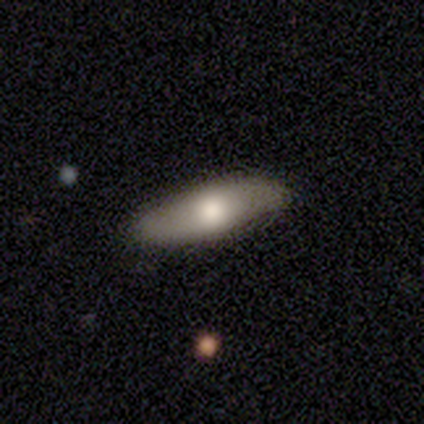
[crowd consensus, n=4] This is possibly a smooth galaxy (50%, tied with featured or disk). How rounded: possibly in between (50%, tied with cigar-shaped). Merging: clearly none (100%).